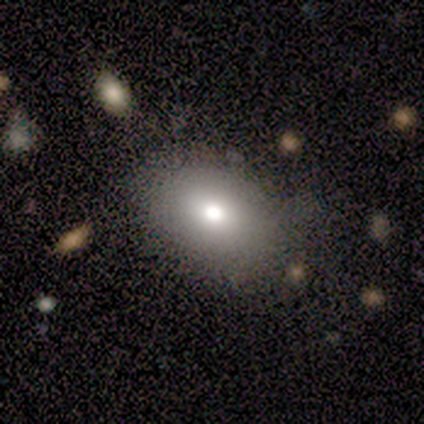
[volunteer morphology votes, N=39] A smooth galaxy with no disk features (74%) that is in between round and cigar-shaped (72%).

Vote fractions:
- Smooth or featured? smooth: 74% / star or artifact: 15% / featured or disk: 10%
- How rounded? in between: 72% / round: 24% / cigar-shaped: 3%
- Merging? none: 82% / minor disturbance: 12% / major disturbance: 3% / merger: 3%